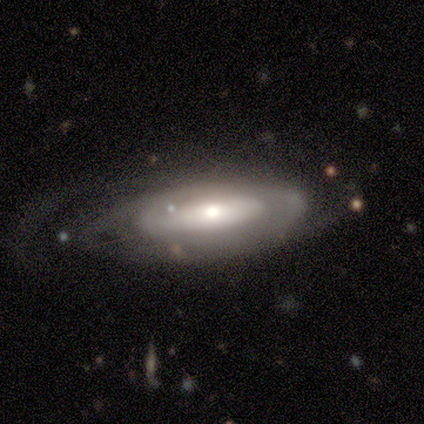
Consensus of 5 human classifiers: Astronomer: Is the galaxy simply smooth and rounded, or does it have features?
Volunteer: featured or disk — 80%.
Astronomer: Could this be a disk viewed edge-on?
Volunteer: no — 75%.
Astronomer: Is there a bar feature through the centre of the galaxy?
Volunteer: strong — 33%, tied with weak and no at 33%.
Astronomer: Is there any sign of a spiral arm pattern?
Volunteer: yes — 67%.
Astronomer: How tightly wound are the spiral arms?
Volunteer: tight — 50%, tied with medium at 50%.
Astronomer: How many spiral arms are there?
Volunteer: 2 — 50%, tied with can't tell at 50%.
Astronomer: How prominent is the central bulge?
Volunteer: moderate — 67%.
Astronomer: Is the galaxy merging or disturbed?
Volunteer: none — 25%, tied with minor disturbance, major disturbance and merger at 25%.